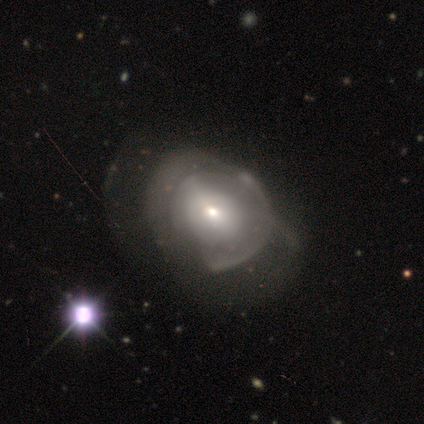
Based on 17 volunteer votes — Smooth or featured? 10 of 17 (59%) said featured or disk. Edge-on disk? 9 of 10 (90%) said no. Bar? 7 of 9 (78%) said no. Spiral arms? 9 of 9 (100%) said no. Bulge size? 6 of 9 (67%) said small. Merging? 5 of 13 (38%, tied with major disturbance) said none.